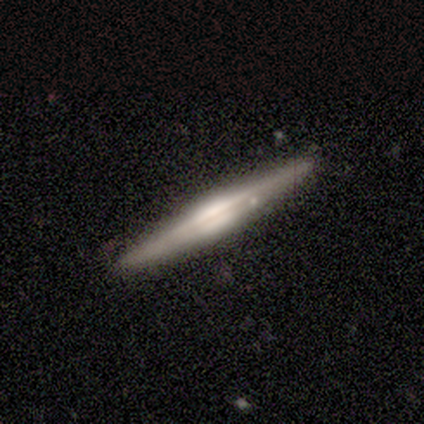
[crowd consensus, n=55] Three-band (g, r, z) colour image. It shows a featured or disk galaxy (85%) viewed edge-on (98%) with a boxy central bulge (50%). Merging: none (78%).